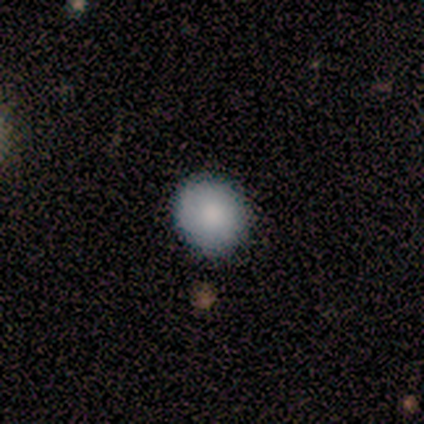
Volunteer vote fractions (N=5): Smooth or featured? 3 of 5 (60%) said featured or disk. Edge-on disk? 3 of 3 (100%) said no. Bar? 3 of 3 (100%) said no. Spiral arms? 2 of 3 (67%) said no. Bulge size? 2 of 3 (67%) said moderate. Merging? 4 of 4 (100%) said none.